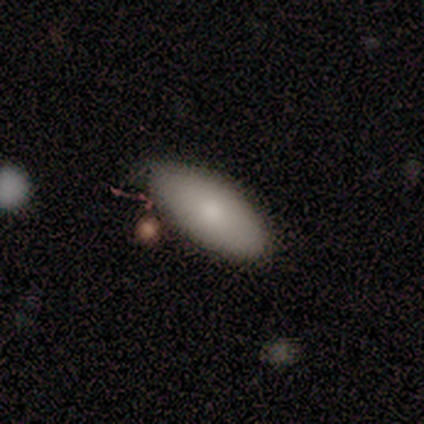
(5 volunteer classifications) This appears to be a smooth galaxy with no disk features (100%) that is in between round and cigar-shaped (80%). Merging: none (60%).